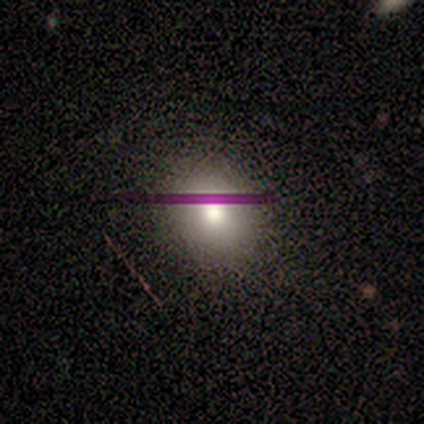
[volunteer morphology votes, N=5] smooth 100%, featured or disk 0%, star or artifact 0%. Down the decision tree: how rounded — round (100%); merging — none (100%).